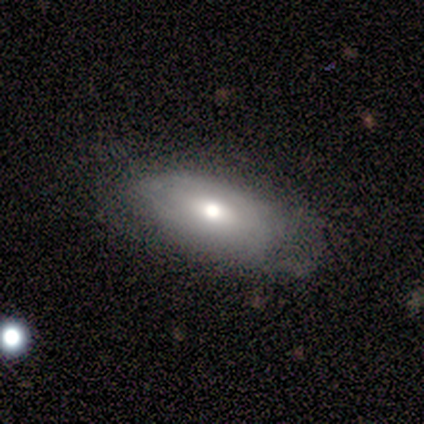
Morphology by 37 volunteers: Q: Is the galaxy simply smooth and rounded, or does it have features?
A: smooth — 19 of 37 (51%).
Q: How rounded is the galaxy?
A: in between — 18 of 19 (95%).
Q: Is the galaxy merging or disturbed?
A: none — 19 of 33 (58%).